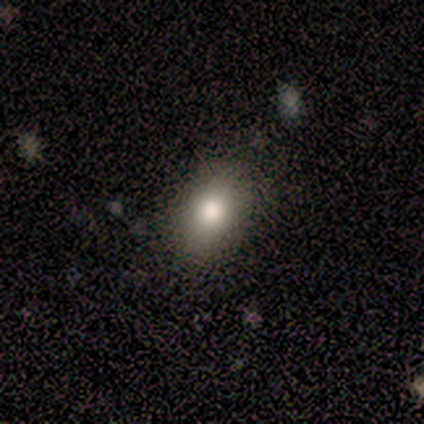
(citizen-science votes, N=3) Overall: smooth (67%; star or artifact 33%). How rounded: in between (100%). Merging: none (50%, tied with minor disturbance).